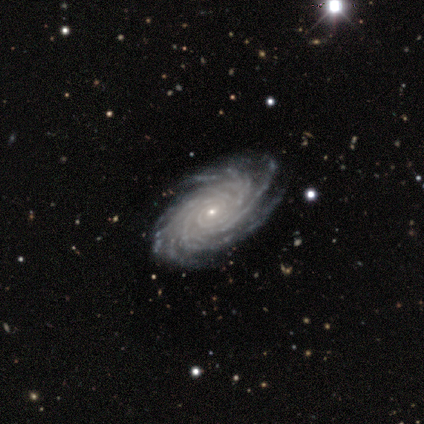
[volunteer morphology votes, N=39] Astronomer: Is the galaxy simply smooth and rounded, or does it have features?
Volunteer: featured or disk — 85%.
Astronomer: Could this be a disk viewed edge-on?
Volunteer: no — 100%.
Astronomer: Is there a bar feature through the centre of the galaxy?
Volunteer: no — 61%.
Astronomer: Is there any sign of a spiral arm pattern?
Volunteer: yes — 100%.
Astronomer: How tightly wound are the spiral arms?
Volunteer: tight — 82%.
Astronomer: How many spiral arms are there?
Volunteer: more than 4 — 70%.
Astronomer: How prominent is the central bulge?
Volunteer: small — 76%.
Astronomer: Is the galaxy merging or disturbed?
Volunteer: none — 82%.